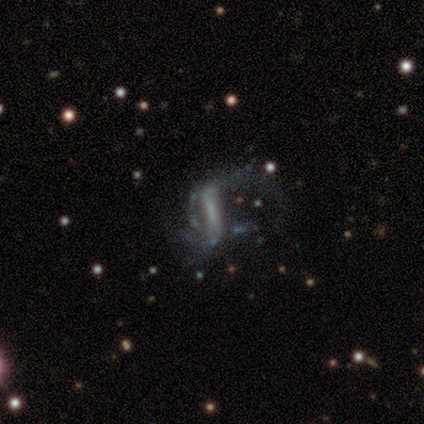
A featured or disk galaxy (68%) with a weak bar (44%), 2 (72%) loose (83%) spiral arms (72%) and no central bulge (76%).

Vote fractions:
- Smooth or featured? featured or disk: 68% / smooth: 16% / star or artifact: 16%
- Edge-on disk? no: 96% / yes: 4%
- Bar? weak: 44% / strong: 36% / no: 20%
- Spiral arms? yes: 72% / no: 28%
- Spiral winding? loose: 83% / medium: 17% / tight: 0%
- Spiral arm count? 2: 72% / 1: 17% / can't tell: 11% / 3: 0% / 4: 0% / more than 4: 0%
- Bulge size? none: 76% / small: 20% / moderate: 4% / dominant: 0% / large: 0%
- Merging? major disturbance: 66% / none: 28% / minor disturbance: 6% / merger: 0%